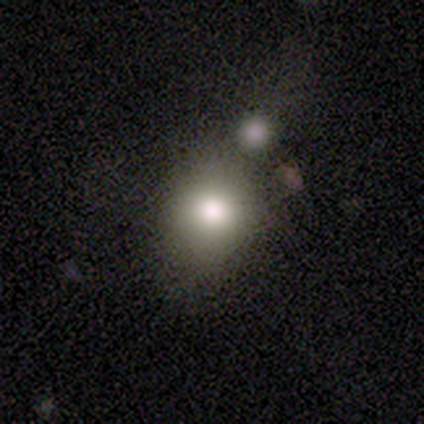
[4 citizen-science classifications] smooth-or-featured: smooth: 75% | featured or disk: 25% | star or artifact: 0%
  how-rounded: in between: 100% | round: 0% | cigar-shaped: 0%
  merging: none: 100% | minor disturbance: 0% | major disturbance: 0% | merger: 0%